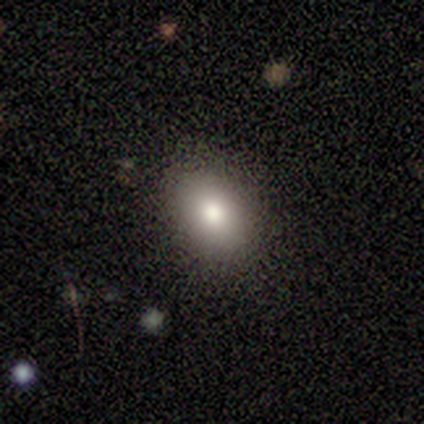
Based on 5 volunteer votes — Q: Smooth or featured?
A: smooth (80%); runner-up: featured or disk (20%)
Q: How rounded?
A: in between (75%); runner-up: round (25%)
Q: Merging?
A: none (100%)